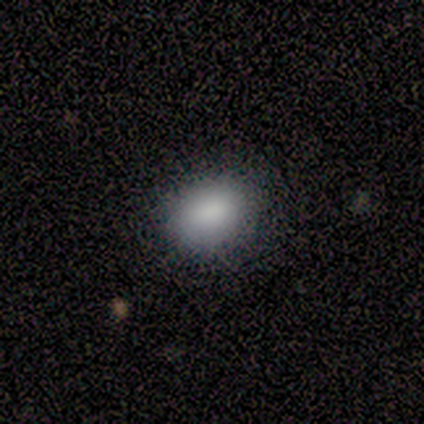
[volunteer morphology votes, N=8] smooth 100%, featured or disk 0%, star or artifact 0%. Down the decision tree: how rounded — in between (88%); merging — none (100%).